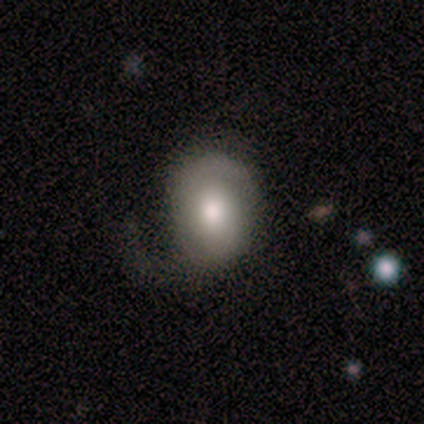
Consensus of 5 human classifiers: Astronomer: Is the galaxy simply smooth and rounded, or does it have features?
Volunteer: smooth — 60% (runner-up: featured or disk, 40%).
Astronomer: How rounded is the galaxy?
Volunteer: round — 67%.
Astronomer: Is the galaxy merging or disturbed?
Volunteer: minor disturbance — 40%, tied with major disturbance at 40%.